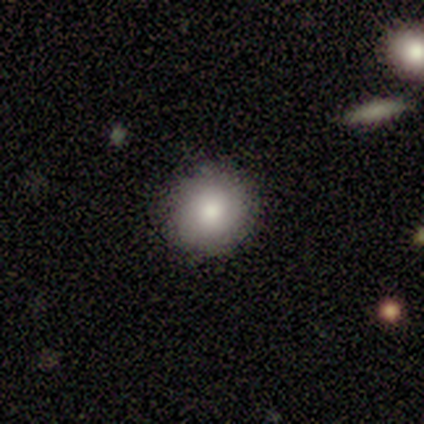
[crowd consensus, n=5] Smooth or featured: smooth — 60% (featured or disk — 40%)
How rounded: round — 100%
Merging: none — 60% (minor disturbance — 40%)